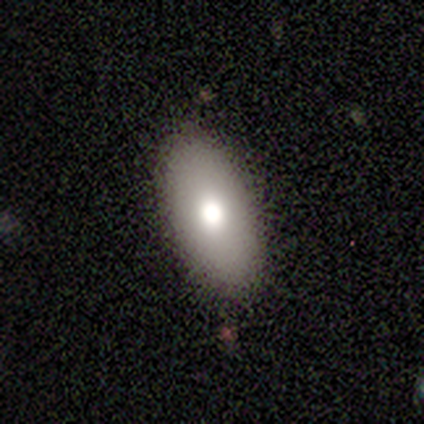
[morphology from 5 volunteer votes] Q: Smooth or featured?
A: smooth (60%); runner-up: featured or disk (40%)
Q: How rounded?
A: in between (100%)
Q: Merging?
A: none (100%)